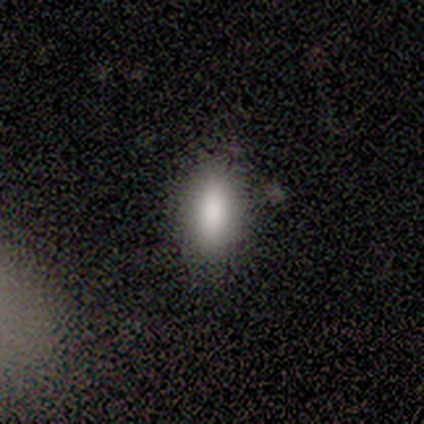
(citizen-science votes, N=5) Smooth or featured? smooth (80%)
How rounded? in between (50%, tied with cigar-shaped)
Merging? none (75%)